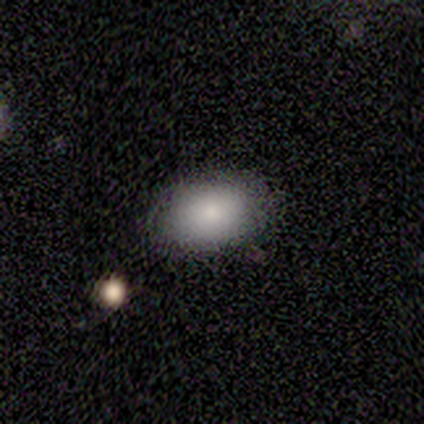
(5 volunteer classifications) smooth-or-featured: smooth: 100% | featured or disk: 0% | star or artifact: 0%
  how-rounded: in between: 80% | round: 20% | cigar-shaped: 0%
  merging: none: 100% | minor disturbance: 0% | major disturbance: 0% | merger: 0%